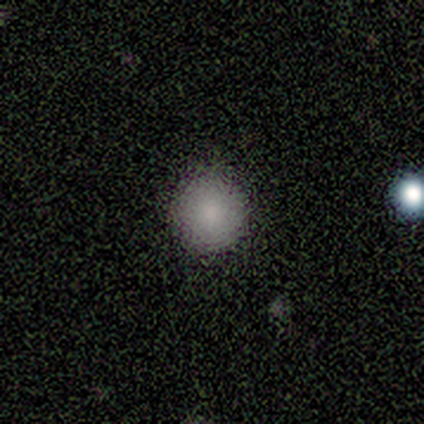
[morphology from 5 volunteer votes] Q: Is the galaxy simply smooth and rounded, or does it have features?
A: smooth — 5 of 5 (100%).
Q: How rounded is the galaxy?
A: round — 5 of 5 (100%).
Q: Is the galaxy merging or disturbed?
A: none — 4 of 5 (80%).